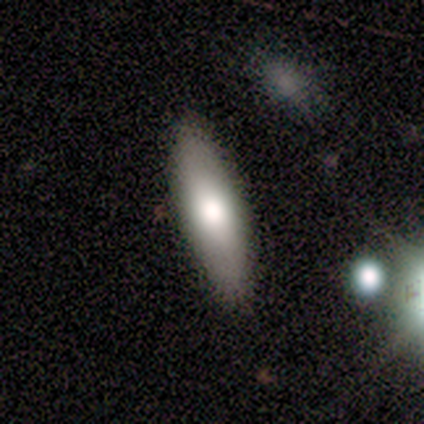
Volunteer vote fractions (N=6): smooth_or_featured: smooth (p=0.83) [alt: featured or disk p=0.17]
how_rounded: in between (p=1.00)
merging: none (p=0.83) [alt: major disturbance p=0.17]